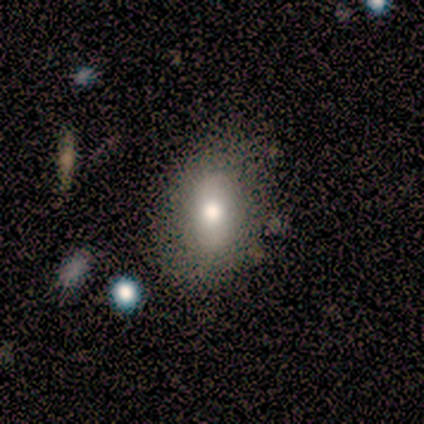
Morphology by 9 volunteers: Volunteers were most divided on "how rounded": in between: 62%, round: 38%, cigar-shaped: 0%. More confident: merging — none (100%); smooth or featured — smooth (89%).